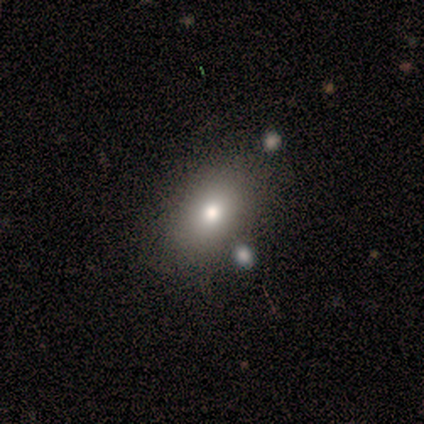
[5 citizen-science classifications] Volunteers were most divided on "smooth or featured": smooth: 80%, featured or disk: 20%, star or artifact: 0%. More confident: how rounded — in between (100%); merging — none (100%).